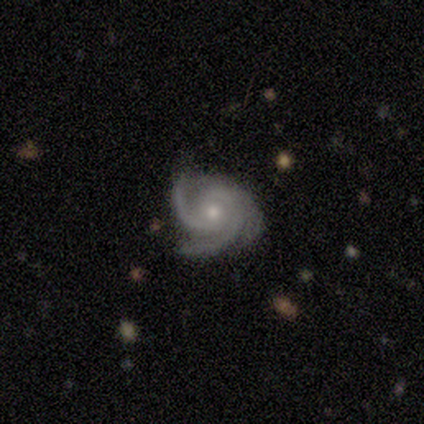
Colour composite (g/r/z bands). It shows a featured or disk galaxy (98%) with no bar (80%), 3 (92%) tight (55%) spiral arms (100%) and a moderate central bulge (55%). Merging: none (90%).